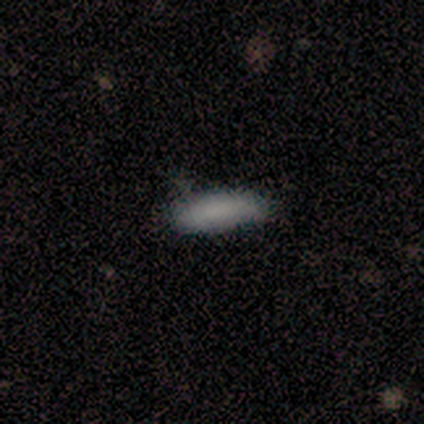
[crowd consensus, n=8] This appears to be a smooth galaxy with no disk features (88%) that is in between round and cigar-shaped (86%). Merging: none (71%).